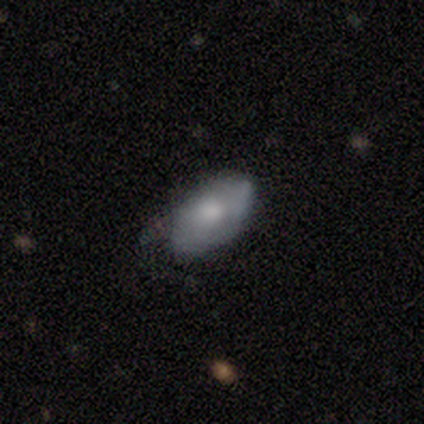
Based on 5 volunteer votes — smooth-or-featured: smooth: 60% | featured or disk: 20% | star or artifact: 20%
  how-rounded: in between: 100% | round: 0% | cigar-shaped: 0%
  merging: minor disturbance: 75% | none: 25% | major disturbance: 0% | merger: 0%